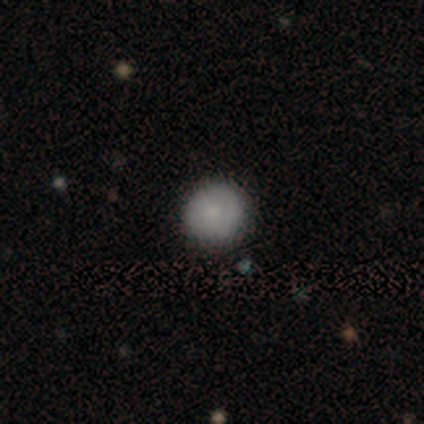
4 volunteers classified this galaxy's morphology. Q: Smooth or featured?
A: smooth (100%)
Q: How rounded?
A: round (100%)
Q: Merging?
A: none (100%)